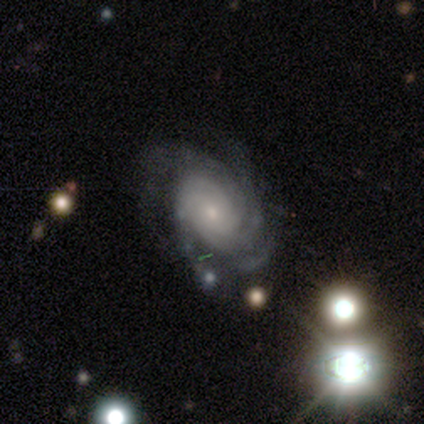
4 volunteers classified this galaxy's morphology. Smooth or featured?
  - featured or disk: 75% *
  - smooth: 25%
  - star or artifact: 0%
Edge-on disk?
  - no: 100% *
  - yes: 0%
Bar?
  - no: 67% *
  - weak: 33%
  - strong: 0%
Spiral arms?
  - yes: 100% *
  - no: 0%
Spiral winding?
  - tight: 100% *
  - medium: 0%
  - loose: 0%
Spiral arm count?
  - 4: 67% *
  - can't tell: 33%
  - 1: 0%
  - 2: 0%
  - 3: 0%
  - more than 4: 0%
Bulge size?
  - small: 100% *
  - dominant: 0%
  - large: 0%
  - moderate: 0%
  - none: 0%
Merging?
  - none: 50% * (tied)
  - minor disturbance: 50% * (tied)
  - major disturbance: 0%
  - merger: 0%